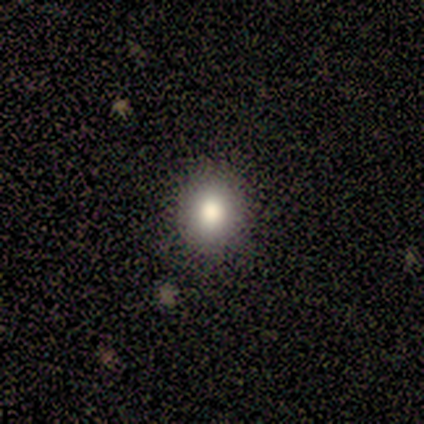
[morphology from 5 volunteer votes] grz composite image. It shows a smooth galaxy with no disk features (100%) that is round (100%). Merging: none (80%).